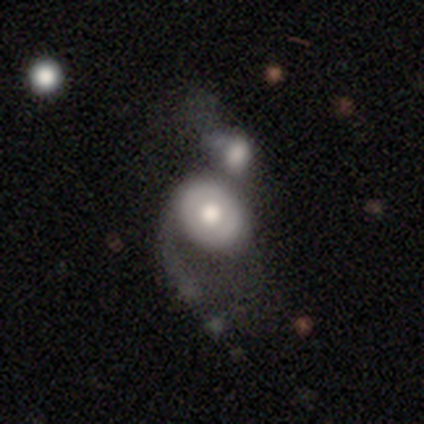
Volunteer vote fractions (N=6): smooth_or_featured: featured or disk (p=0.50) [alt: star or artifact p=0.33]
disk_edge_on: no (p=1.00)
bar: no (p=1.00)
has_spiral_arms: yes (p=0.67) [alt: no p=0.33]
spiral_winding: medium (p=0.50) [tied with: loose p=0.50]
spiral_arm_count: 1 (p=0.50) [tied with: 3 p=0.50]
bulge_size: moderate (p=1.00)
merging: merger (p=0.75) [alt: major disturbance p=0.25]